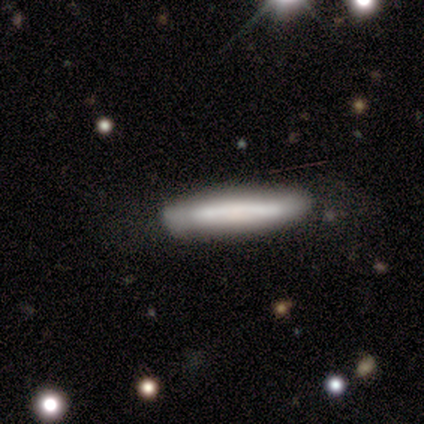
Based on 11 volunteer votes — Q: Smooth or featured?
A: smooth (73%); runner-up: featured or disk (27%)
Q: How rounded?
A: cigar-shaped (88%); runner-up: in between (12%)
Q: Merging?
A: none (91%); runner-up: minor disturbance (9%)